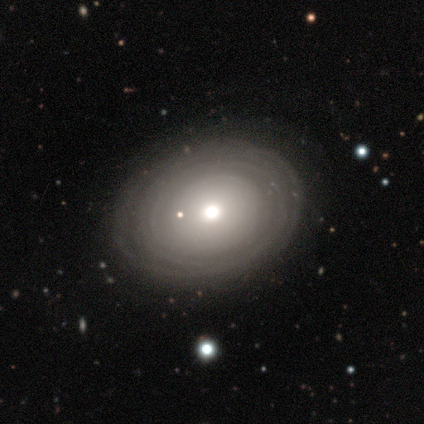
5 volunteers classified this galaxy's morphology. This appears to be a smooth galaxy with no disk features (60%) that is in between round and cigar-shaped (67%). Merging: none (80%).